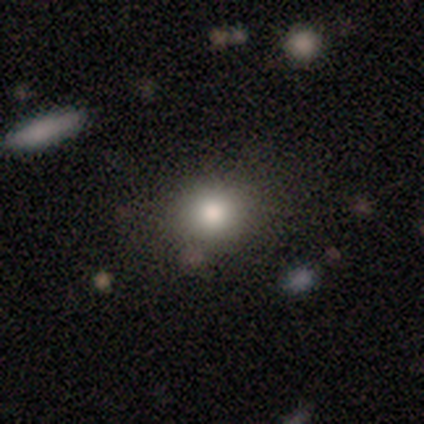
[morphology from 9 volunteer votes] This appears to be a smooth galaxy with no disk features (100%) that is round (67%). Merging: none (100%).